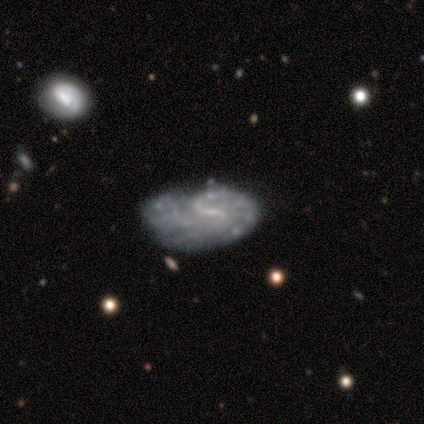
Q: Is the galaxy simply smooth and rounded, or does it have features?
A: featured or disk — 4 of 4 (100%).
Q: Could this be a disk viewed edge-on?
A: no — 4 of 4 (100%).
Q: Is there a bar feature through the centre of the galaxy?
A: weak — 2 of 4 (50%, tied with no).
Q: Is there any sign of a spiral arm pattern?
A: no — 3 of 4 (75%).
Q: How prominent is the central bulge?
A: small — 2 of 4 (50%, tied with none).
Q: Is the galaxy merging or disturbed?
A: none — 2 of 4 (50%).